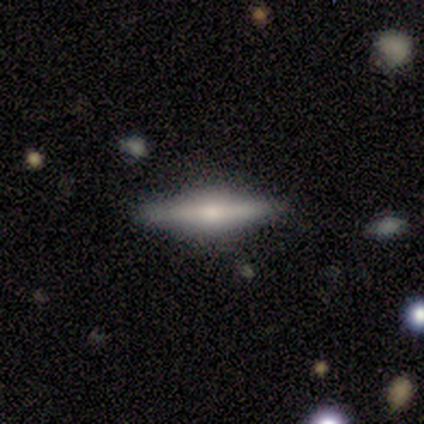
Smooth or featured? 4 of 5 (80%) said featured or disk. Edge-on disk? 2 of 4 (50%, tied with no) said yes. Edge-on bulge? 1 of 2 (50%, tied with rounded) said none. Merging? 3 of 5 (60%) said none.